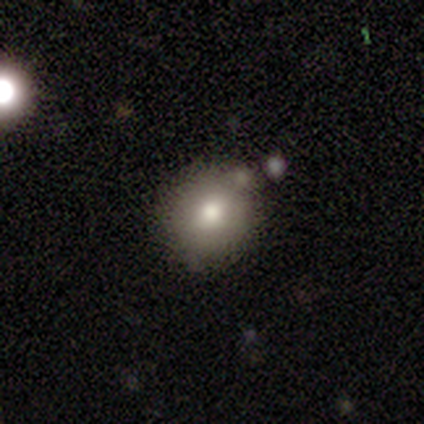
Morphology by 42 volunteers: smooth-or-featured: smooth: 90% | star or artifact: 7% | featured or disk: 2%
  how-rounded: round: 76% | in between: 24% | cigar-shaped: 0%
  merging: none: 74% | minor disturbance: 13% | merger: 8% | major disturbance: 5%